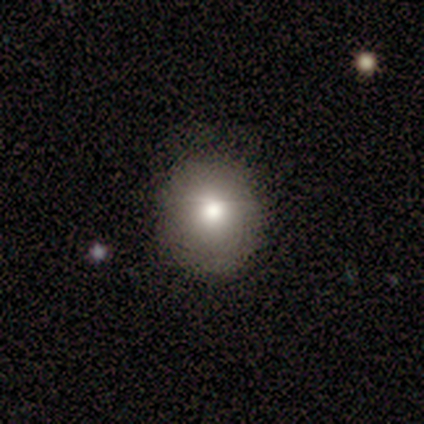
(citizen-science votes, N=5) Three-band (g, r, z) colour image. It shows a smooth galaxy with no disk features (60%) that is round (100%). Merging: none (100%).